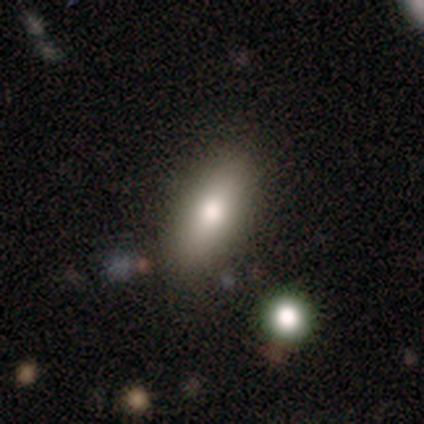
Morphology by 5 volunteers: Smooth or featured?
  - smooth: 100% *
  - featured or disk: 0%
  - star or artifact: 0%
How rounded?
  - in between: 100% *
  - round: 0%
  - cigar-shaped: 0%
Merging?
  - none: 100% *
  - minor disturbance: 0%
  - major disturbance: 0%
  - merger: 0%